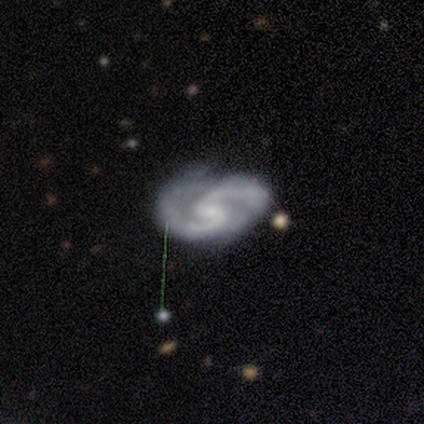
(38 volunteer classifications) Smooth or featured?
  - featured or disk: 92% *
  - smooth: 5%
  - star or artifact: 3%
Edge-on disk?
  - no: 100% *
  - yes: 0%
Bar?
  - weak: 43% *
  - no: 40%
  - strong: 17%
Spiral arms?
  - yes: 100% *
  - no: 0%
Spiral winding?
  - medium: 63% *
  - tight: 26%
  - loose: 11%
Spiral arm count?
  - 2: 97% *
  - 3: 3%
  - 1: 0%
  - 4: 0%
  - more than 4: 0%
  - can't tell: 0%
Bulge size?
  - small: 63% *
  - moderate: 20%
  - none: 14%
  - large: 3%
  - dominant: 0%
Merging?
  - none: 70% *
  - minor disturbance: 22%
  - major disturbance: 8%
  - merger: 0%